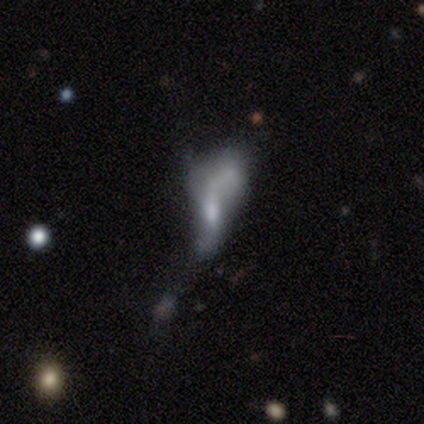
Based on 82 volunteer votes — Smooth or featured? featured or disk (67%)
Edge-on disk? no (96%)
Bar? no (60%)
Spiral arms? no (58%)
Bulge size? none (40%)
Merging? major disturbance (58%)